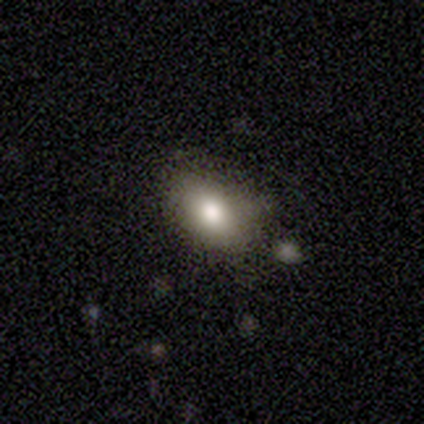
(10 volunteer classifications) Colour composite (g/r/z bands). It shows a smooth galaxy with no disk features (70%) that is in between round and cigar-shaped (71%). Merging: none (100%).